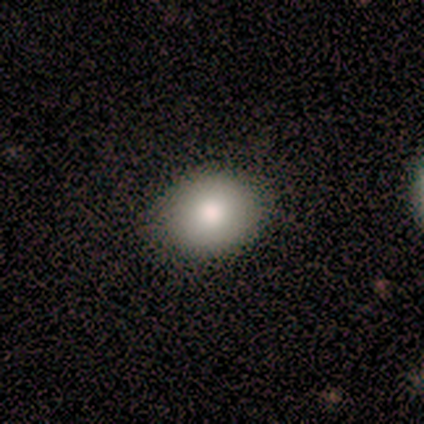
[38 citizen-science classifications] This is clearly a smooth galaxy (82%). How rounded: possibly round (55%). Merging: clearly none (88%).